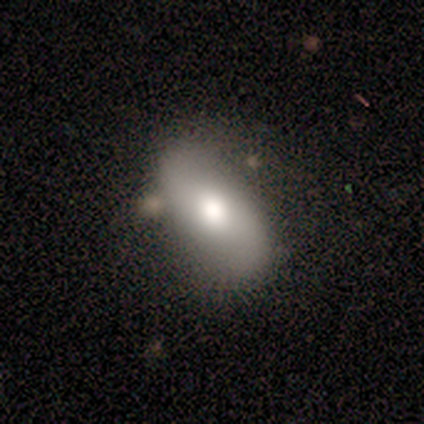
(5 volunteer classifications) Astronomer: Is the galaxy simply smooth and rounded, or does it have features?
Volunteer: featured or disk — 60% (runner-up: smooth, 40%).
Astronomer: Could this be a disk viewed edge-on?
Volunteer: no — 100%.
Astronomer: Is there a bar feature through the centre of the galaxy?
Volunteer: no — 67%.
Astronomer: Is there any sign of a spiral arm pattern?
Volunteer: yes — 67%.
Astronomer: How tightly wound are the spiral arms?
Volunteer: loose — 100%.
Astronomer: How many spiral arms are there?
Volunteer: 2 — 100%.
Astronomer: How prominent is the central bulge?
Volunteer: large — 33%, tied with moderate and small at 33%.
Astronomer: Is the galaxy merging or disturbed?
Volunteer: none — 60%.